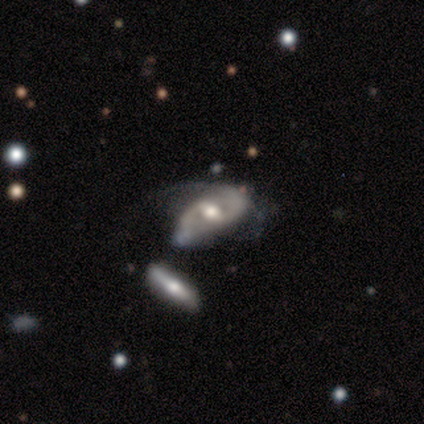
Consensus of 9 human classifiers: Smooth or featured? featured or disk (78%)
Edge-on disk? no (86%)
Bar? weak (67%)
Spiral arms? yes (83%)
Spiral winding? medium (40%, tied with loose)
Spiral arm count? 2 (60%)
Bulge size? moderate (83%)
Merging? none (44%)